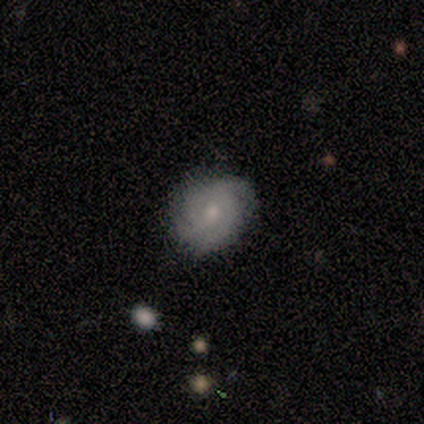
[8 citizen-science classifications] A featured or disk galaxy (75%) with no bar (83%), 2 (33%, tied with 4) medium (50%) spiral arms (100%) and a moderate central bulge (67%).

Vote fractions:
- Smooth or featured? featured or disk: 75% / smooth: 25% / star or artifact: 0%
- Edge-on disk? no: 100% / yes: 0%
- Bar? no: 83% / weak: 17% / strong: 0%
- Spiral arms? yes: 100% / no: 0%
- Spiral winding? medium: 50% / loose: 33% / tight: 17%
- Spiral arm count? 2: 33% (tied) / 4: 33% (tied) / 3: 17% / can't tell: 17% / 1: 0% / more than 4: 0%
- Bulge size? moderate: 67% / large: 17% / small: 17% / dominant: 0% / none: 0%
- Merging? none: 75% / minor disturbance: 12% / major disturbance: 12% / merger: 0%